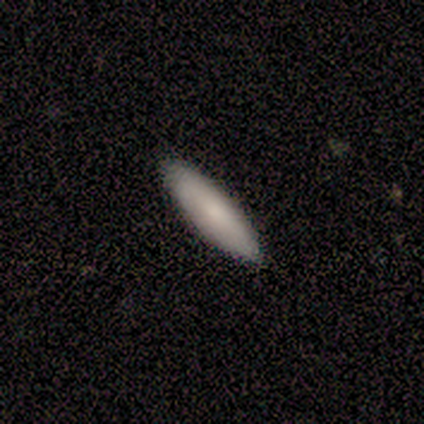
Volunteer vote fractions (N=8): Overall: smooth (88%). How rounded: in between (57%; cigar-shaped 43%). Merging: none (100%).